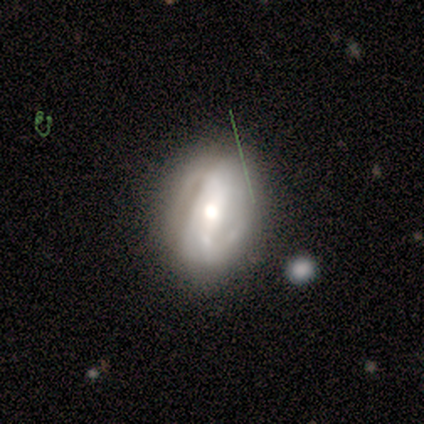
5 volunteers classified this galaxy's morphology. This appears to be a featured or disk galaxy (60%) with a strong bar (67%), 2 (67%) loose (67%) spiral arms (100%) and a moderate central bulge (100%). Merging: none (60%).